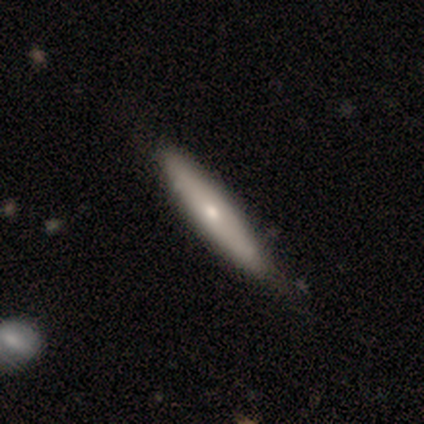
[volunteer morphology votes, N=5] smooth_or_featured: featured or disk (p=0.60) [alt: smooth p=0.20]
disk_edge_on: no (p=0.67) [alt: yes p=0.33]
bar: no (p=1.00)
has_spiral_arms: yes (p=0.50) [tied with: no p=0.50]
spiral_winding: tight (p=1.00)
spiral_arm_count: can't tell (p=1.00)
bulge_size: moderate (p=1.00)
merging: none (p=0.75) [alt: minor disturbance p=0.25]